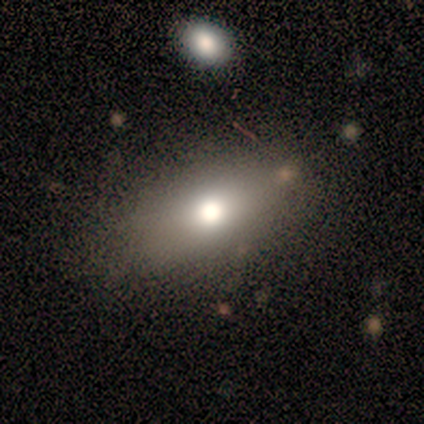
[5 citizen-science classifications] This appears to be a smooth galaxy with no disk features (80%) that is in between round and cigar-shaped (75%). Merging: none (40%, tied with minor disturbance).